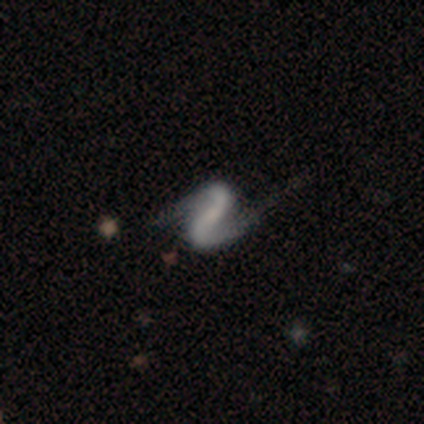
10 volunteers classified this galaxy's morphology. featured or disk 100%, smooth 0%, star or artifact 0%. Down the decision tree: edge-on disk — no (100%); bar — strong (60%); spiral arms — yes (100%); spiral arm count — 2 (100%); spiral winding — loose (80%); bulge size — none (60%); merging — none (70%).